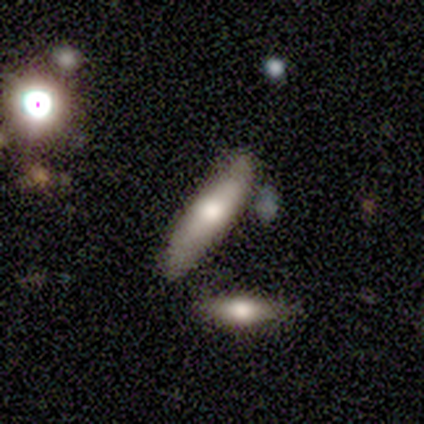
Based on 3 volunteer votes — Volunteers were most divided on "smooth or featured": smooth: 67%, star or artifact: 33%, featured or disk: 0%. More confident: how rounded — cigar-shaped (100%); merging — none (100%).